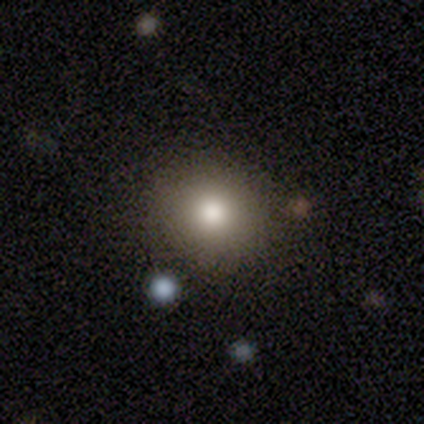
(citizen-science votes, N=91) Smooth or featured?
  - smooth: 81% *
  - featured or disk: 11%
  - star or artifact: 8%
How rounded?
  - round: 84% *
  - in between: 16%
  - cigar-shaped: 0%
Merging?
  - none: 88% *
  - merger: 6%
  - minor disturbance: 5%
  - major disturbance: 1%